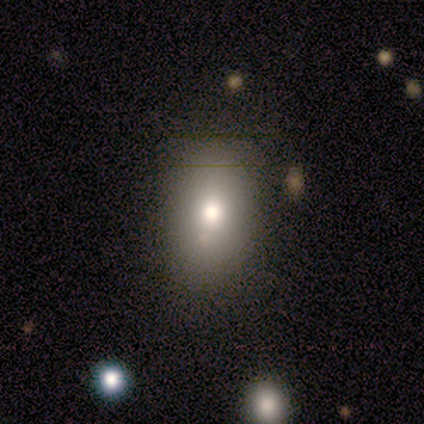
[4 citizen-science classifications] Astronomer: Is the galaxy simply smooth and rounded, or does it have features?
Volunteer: smooth — 75%.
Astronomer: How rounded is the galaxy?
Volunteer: in between — 67%.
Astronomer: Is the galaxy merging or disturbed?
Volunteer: none — 75%.